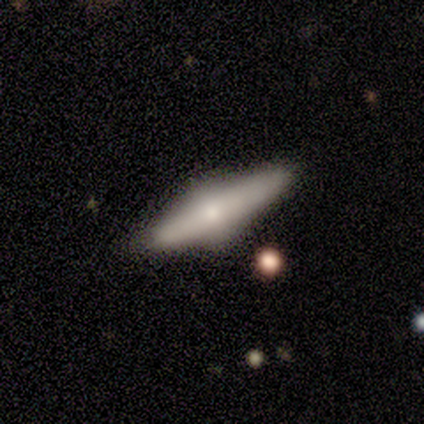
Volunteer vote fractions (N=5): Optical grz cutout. It shows a featured or disk galaxy (60%) viewed edge-on (100%) with a rounded central bulge (100%). Merging: none (100%).